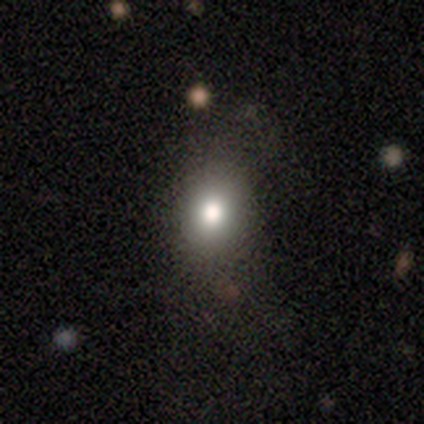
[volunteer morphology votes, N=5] This is clearly a smooth galaxy (80%). How rounded: likely round (75%). Merging: likely none (75%).